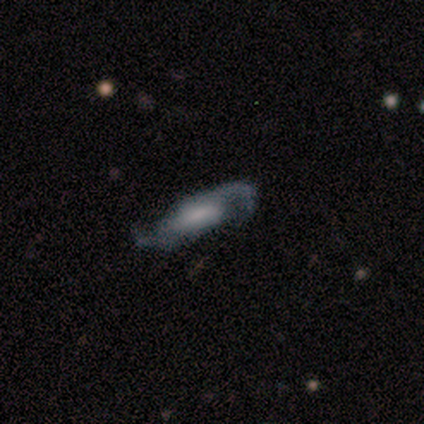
Overall: featured or disk (60%; smooth 40%). Edge-on disk: no (67%; yes 33%). Bar: strong (50%, tied with weak). Spiral arms: yes (100%). Spiral arm count: 2 (100%). Spiral winding: medium (50%, tied with loose). Bulge size: small (100%). Merging: minor disturbance (40%, tied with major disturbance).